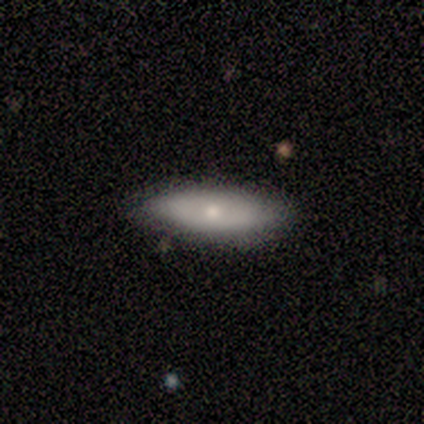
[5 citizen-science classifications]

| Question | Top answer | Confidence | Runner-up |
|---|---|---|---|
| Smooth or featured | smooth | 60% | featured or disk (20%) |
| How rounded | cigar-shaped | 100% | — |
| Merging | none | 75% | merger (25%) |